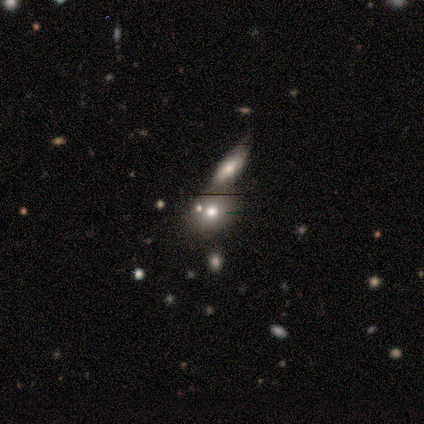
This appears to be a smooth galaxy with no disk features (60%) that is in between round and cigar-shaped (67%). Merging: merger (50%).